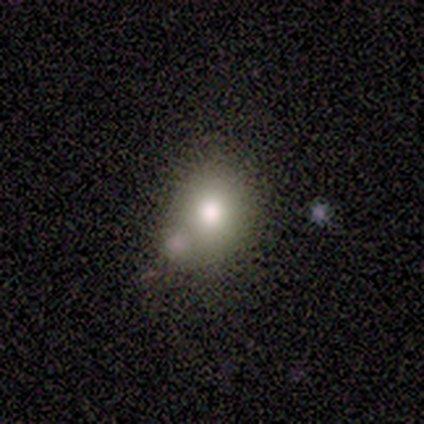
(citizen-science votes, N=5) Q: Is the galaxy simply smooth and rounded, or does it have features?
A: smooth — 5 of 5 (100%).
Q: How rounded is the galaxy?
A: round — 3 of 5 (60%).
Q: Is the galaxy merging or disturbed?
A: none — 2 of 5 (40%, tied with minor disturbance).